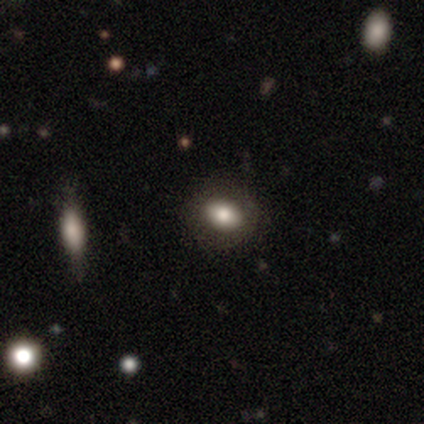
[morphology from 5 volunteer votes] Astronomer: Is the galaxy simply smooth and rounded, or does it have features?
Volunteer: smooth — 80%.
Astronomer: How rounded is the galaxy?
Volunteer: round — 50%, tied with in between at 50%.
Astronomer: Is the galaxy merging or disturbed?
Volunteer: none — 75%.